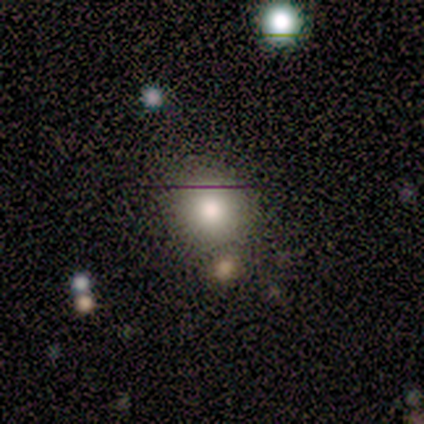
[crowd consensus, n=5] smooth_or_featured: smooth (p=1.00)
how_rounded: round (p=1.00)
merging: none (p=0.80) [alt: major disturbance p=0.20]